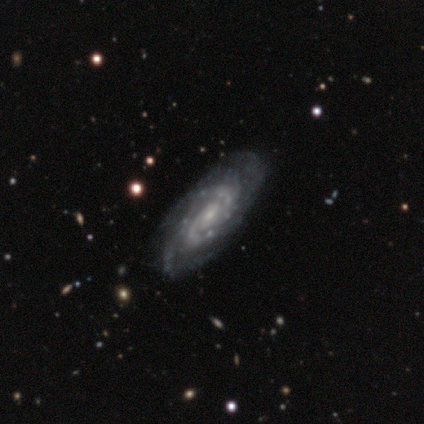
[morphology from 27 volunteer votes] type=featured or disk (93%); edge-on=no (96%); bar=no (62%); spiral arms=yes (96%); winding=tight (52%); arm count=can't tell (48%); bulge=small (75%); merging=none (78%).